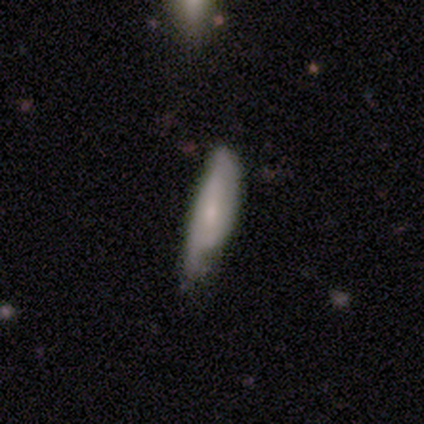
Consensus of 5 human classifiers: A smooth galaxy with no disk features (60%) that is in between round and cigar-shaped (67%).

Vote fractions:
- Smooth or featured? smooth: 60% / featured or disk: 40% / star or artifact: 0%
- How rounded? in between: 67% / cigar-shaped: 33% / round: 0%
- Merging? minor disturbance: 80% / none: 20% / major disturbance: 0% / merger: 0%